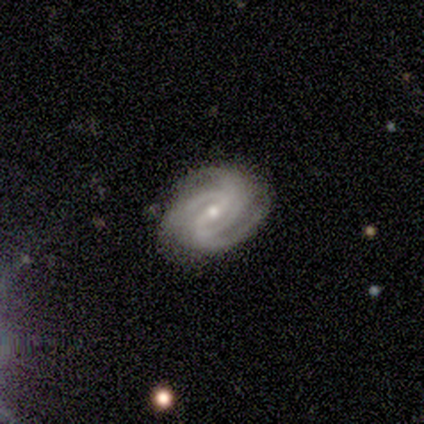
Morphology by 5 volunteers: Volunteers were most divided on "merging" (2-way tie): none: 50%, minor disturbance: 50%, major disturbance: 0%, merger: 0%. More confident: edge-on disk — no (100%); spiral arms — yes (100%); smooth or featured — featured or disk (80%); bar — weak (75%); spiral winding — tight (75%); spiral arm count — 2 (75%); bulge size — moderate (50%).